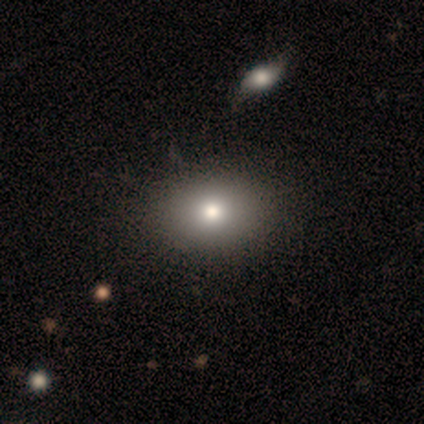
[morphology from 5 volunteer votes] type=smooth (40%, tied with featured or disk); roundness=round (50%, tied with in between); merging=none (100%).